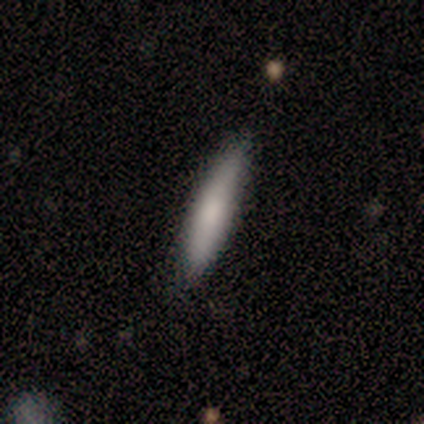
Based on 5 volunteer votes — Smooth or featured? smooth (100%)
How rounded? cigar-shaped (60%)
Merging? none (80%)